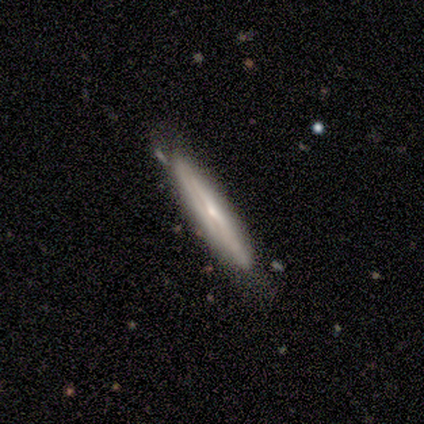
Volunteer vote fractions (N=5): A featured or disk galaxy (80%) viewed edge-on (100%) with no central bulge (75%). Merging: none (60%).